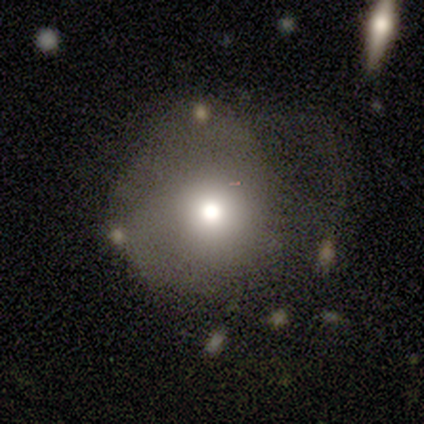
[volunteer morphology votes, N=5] Smooth or featured? smooth (80%)
How rounded? round (100%)
Merging? none (50%, tied with major disturbance)